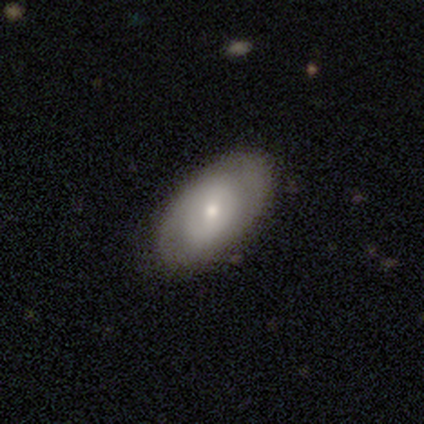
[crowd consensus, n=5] smooth_or_featured: smooth (p=0.40) [tied with: featured or disk p=0.40]
how_rounded: in between (p=1.00)
merging: none (p=1.00)